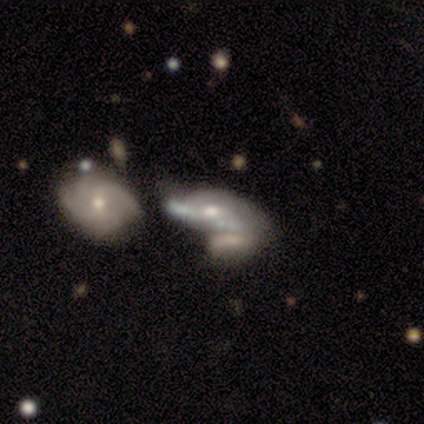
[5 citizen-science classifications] Volunteers were most divided on "bulge size" (2-way tie): moderate: 40%, small: 40%, none: 20%, dominant: 0%, large: 0%. More confident: smooth or featured — featured or disk (100%); edge-on disk — no (100%); spiral arms — no (80%); bar — no (60%); merging — merger (60%).